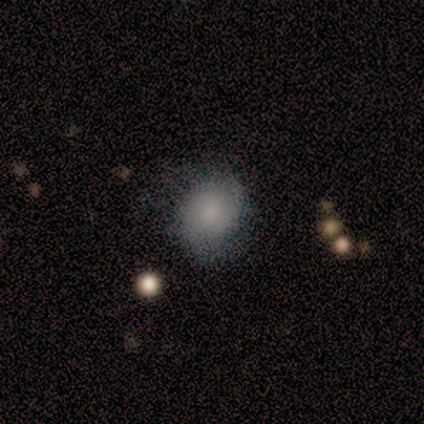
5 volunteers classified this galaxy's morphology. type=smooth (40%, tied with featured or disk); roundness=round (50%, tied with in between); merging=none (75%).